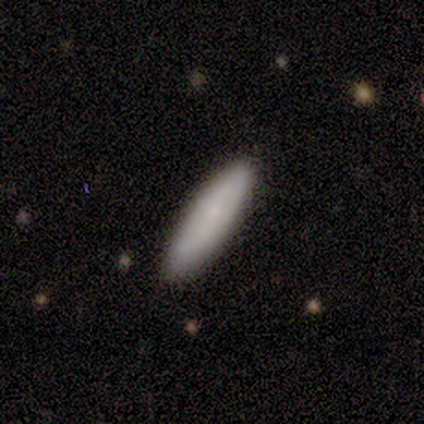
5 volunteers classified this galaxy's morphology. This is clearly a smooth galaxy (100%). How rounded: likely cigar-shaped (60%). Merging: clearly none (100%).